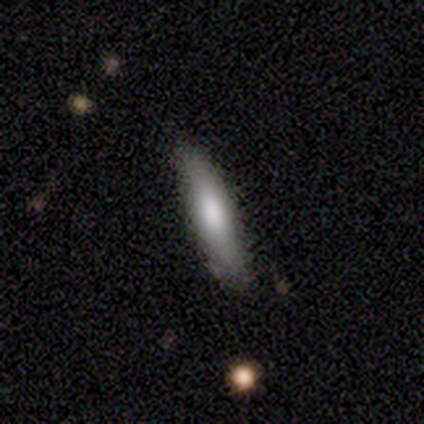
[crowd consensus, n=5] smooth_or_featured: smooth (p=0.60) [alt: featured or disk p=0.20]
how_rounded: cigar-shaped (p=1.00)
merging: none (p=0.75) [alt: merger p=0.25]